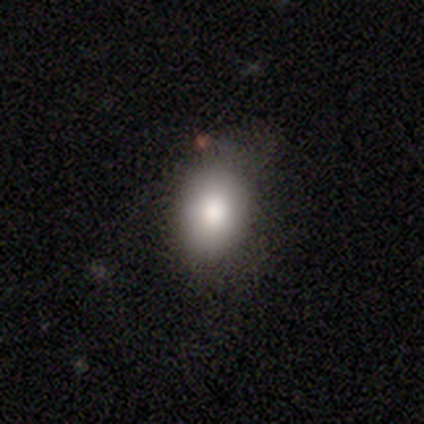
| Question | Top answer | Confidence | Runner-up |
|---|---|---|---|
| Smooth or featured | smooth | 89% | featured or disk (8%) |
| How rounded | in between | 68% | round (29%) |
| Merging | none | 49% | minor disturbance (41%) |